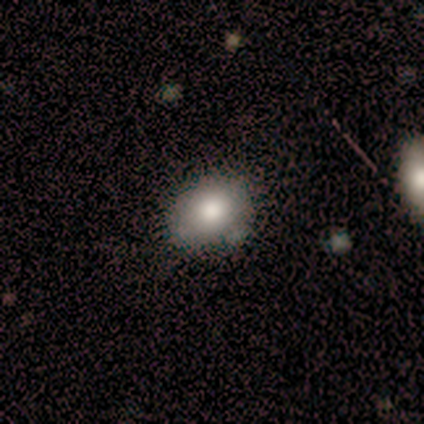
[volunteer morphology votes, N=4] A smooth galaxy with no disk features (75%) that is round (67%).

Vote fractions:
- Smooth or featured? smooth: 75% / star or artifact: 25% / featured or disk: 0%
- How rounded? round: 67% / in between: 33% / cigar-shaped: 0%
- Merging? none: 67% / minor disturbance: 33% / major disturbance: 0% / merger: 0%